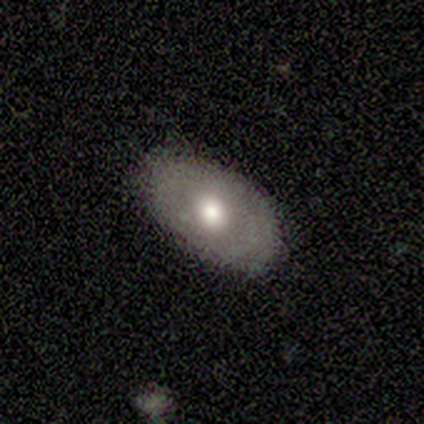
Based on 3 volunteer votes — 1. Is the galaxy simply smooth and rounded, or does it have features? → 67% featured or disk, 33% smooth, 0% star or artifact.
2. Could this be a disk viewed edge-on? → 100% no, 0% yes.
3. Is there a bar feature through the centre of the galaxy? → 100% no, 0% strong, 0% weak.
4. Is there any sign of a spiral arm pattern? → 100% no, 0% yes.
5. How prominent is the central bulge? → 100% moderate, 0% dominant, 0% large, 0% small, 0% none.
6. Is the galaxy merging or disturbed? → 100% none, 0% minor disturbance, 0% major disturbance, 0% merger.